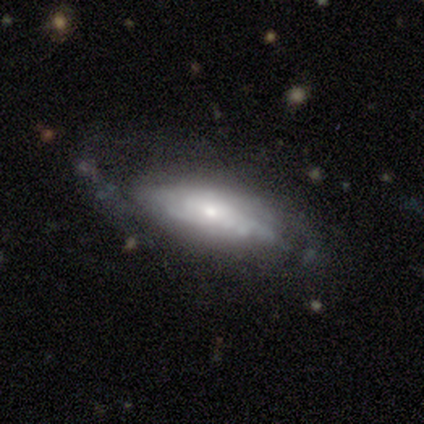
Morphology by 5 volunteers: Smooth or featured? 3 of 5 (60%) said featured or disk. Edge-on disk? 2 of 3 (67%) said no. Bar? 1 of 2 (50%, tied with no) said weak. Spiral arms? 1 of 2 (50%, tied with no) said yes. Spiral winding? 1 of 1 (100%) said tight. Spiral arm count? 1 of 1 (100%) said can't tell. Bulge size? 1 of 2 (50%, tied with small) said moderate. Merging? 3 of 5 (60%) said none.